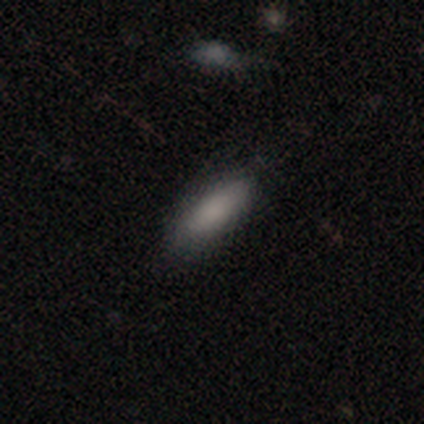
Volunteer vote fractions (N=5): Q: Smooth or featured?
A: smooth (100%)
Q: How rounded?
A: in between (100%)
Q: Merging?
A: none (100%)